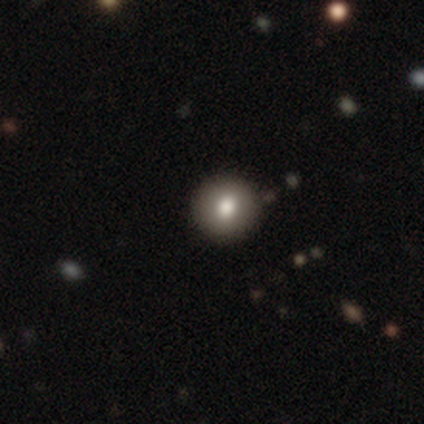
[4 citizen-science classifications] This is clearly a smooth galaxy (100%). How rounded: clearly round (100%). Merging: likely none (75%).